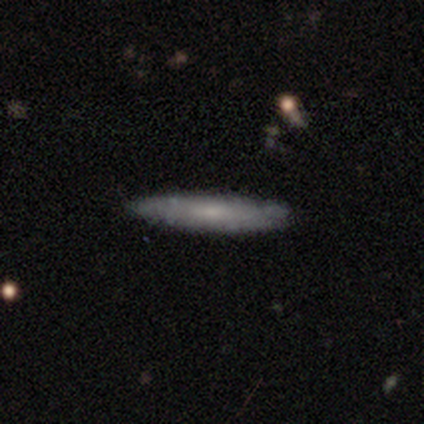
Q: Smooth or featured?
A: smooth (50%); tied with: featured or disk (50%)
Q: How rounded?
A: cigar-shaped (83%); runner-up: in between (17%)
Q: Merging?
A: none (75%); runner-up: minor disturbance (17%)